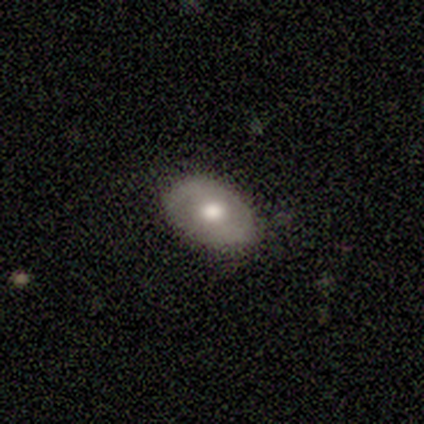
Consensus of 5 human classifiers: Morphology: type=smooth (80%); roundness=in between (75%); merging=none (80%).